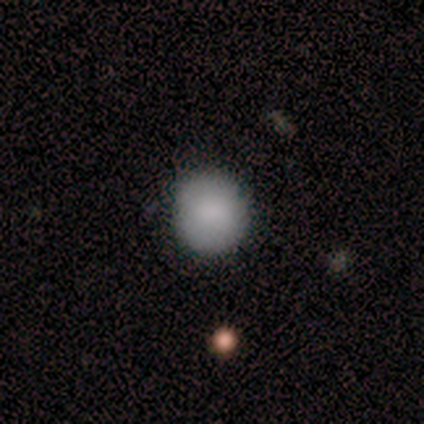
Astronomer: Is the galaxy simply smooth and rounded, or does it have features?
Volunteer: smooth — 100%.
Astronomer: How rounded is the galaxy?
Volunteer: round — 100%.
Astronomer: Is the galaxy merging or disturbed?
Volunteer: none — 100%.